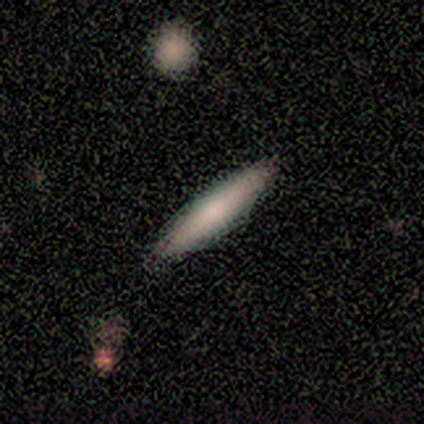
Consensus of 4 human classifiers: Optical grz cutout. It shows a smooth galaxy with no disk features (75%) that is cigar-shaped (100%). Merging: none (100%).